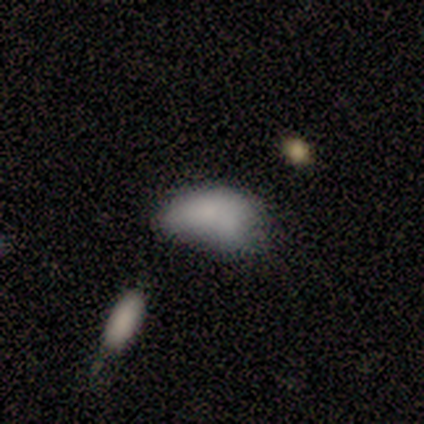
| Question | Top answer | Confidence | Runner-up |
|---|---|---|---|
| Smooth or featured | smooth | 79% | featured or disk (14%) |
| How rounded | in between | 100% | — |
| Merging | minor disturbance | 54% | none (15%) |